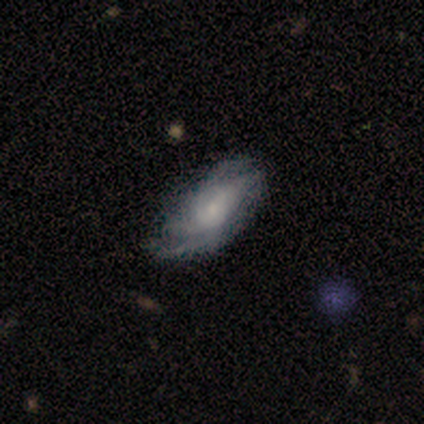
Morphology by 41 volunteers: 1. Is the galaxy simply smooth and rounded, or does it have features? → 66% featured or disk, 27% smooth, 7% star or artifact.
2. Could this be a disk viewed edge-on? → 93% no, 7% yes.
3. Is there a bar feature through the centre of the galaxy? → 72% no, 24% weak, 4% strong.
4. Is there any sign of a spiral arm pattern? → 84% yes, 16% no.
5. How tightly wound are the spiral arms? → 43% tight (tied), 43% medium (tied), 14% loose.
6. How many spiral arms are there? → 43% can't tell, 24% 2, 19% 3, 14% 4, 0% 1, 0% more than 4.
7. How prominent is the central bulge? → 52% small, 16% large, 16% moderate, 8% dominant, 8% none.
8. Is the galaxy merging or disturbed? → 63% none, 16% minor disturbance, 16% major disturbance, 5% merger.